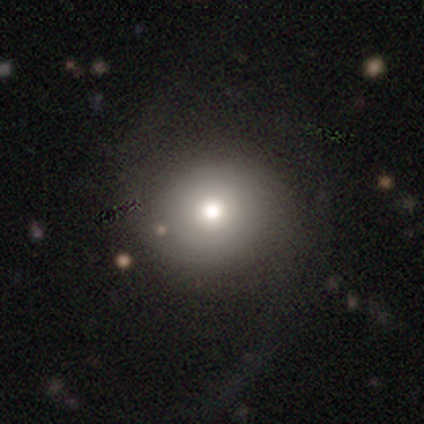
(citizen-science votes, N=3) Smooth or featured: featured or disk — 67% (smooth — 33%)
Edge-on disk: yes — 50% (tied with no — 50%)
Edge-on bulge: none — 100%
Merging: none — 67% (major disturbance — 33%)